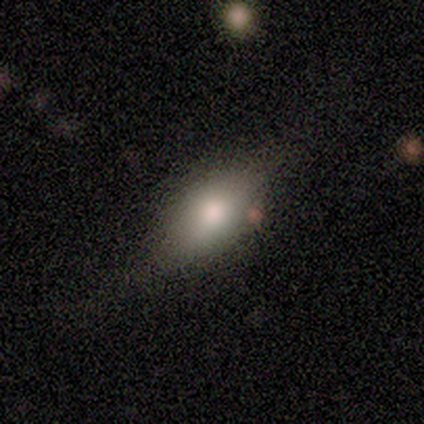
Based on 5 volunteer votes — smooth 80%, featured or disk 20%, star or artifact 0%. Down the decision tree: how rounded — in between (75%); merging — none (60%).